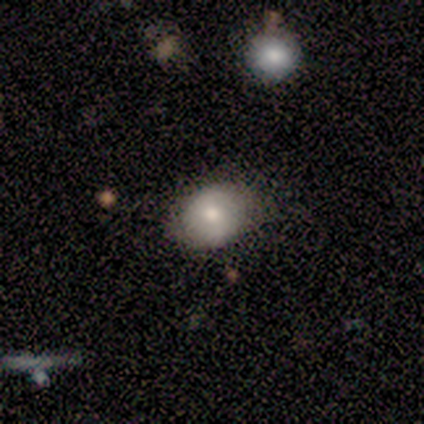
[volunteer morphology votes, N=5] A smooth galaxy with no disk features (100%) that is in between round and cigar-shaped (60%).

Vote fractions:
- Smooth or featured? smooth: 100% / featured or disk: 0% / star or artifact: 0%
- How rounded? in between: 60% / round: 40% / cigar-shaped: 0%
- Merging? none: 80% / minor disturbance: 20% / major disturbance: 0% / merger: 0%